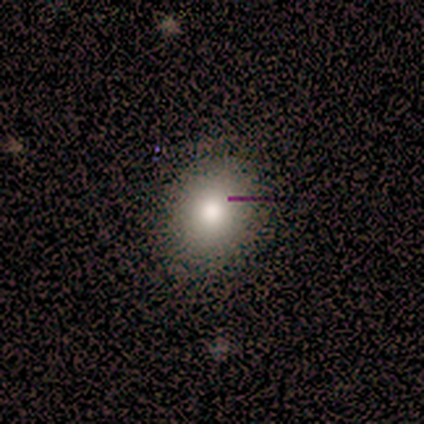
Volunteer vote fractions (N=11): A smooth galaxy with no disk features (82%) that is round (78%). Merging: none (90%).